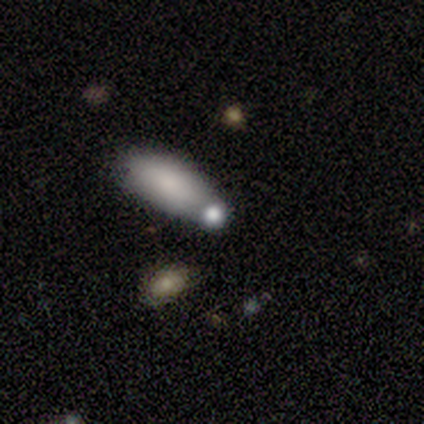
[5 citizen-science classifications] Smooth or featured: smooth — 100%
How rounded: in between — 80% (round — 20%)
Merging: none — 60% (minor disturbance — 40%)